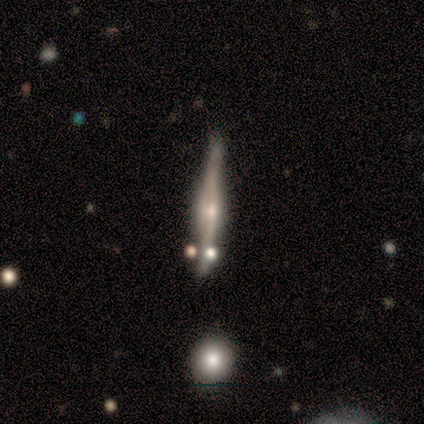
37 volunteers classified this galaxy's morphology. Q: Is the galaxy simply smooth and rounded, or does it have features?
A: featured or disk — 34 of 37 (92%).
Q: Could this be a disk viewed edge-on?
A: yes — 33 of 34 (97%).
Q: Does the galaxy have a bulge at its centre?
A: rounded — 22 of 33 (67%).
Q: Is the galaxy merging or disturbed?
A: none — 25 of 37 (68%).